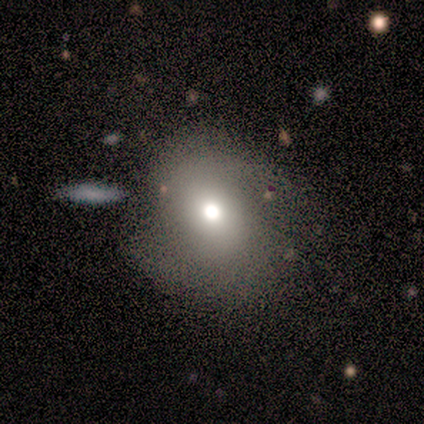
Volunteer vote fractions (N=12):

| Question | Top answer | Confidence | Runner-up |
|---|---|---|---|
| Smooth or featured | smooth | 67% | featured or disk (17%) |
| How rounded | round | 75% | in between (25%) |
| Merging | none | 70% | minor disturbance (10%) |